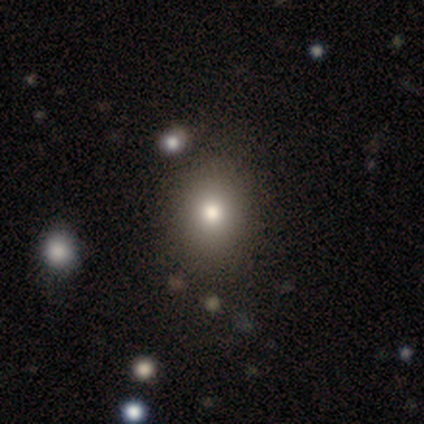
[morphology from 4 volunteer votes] A smooth galaxy with no disk features (75%) that is round (67%). Merging: none (100%).